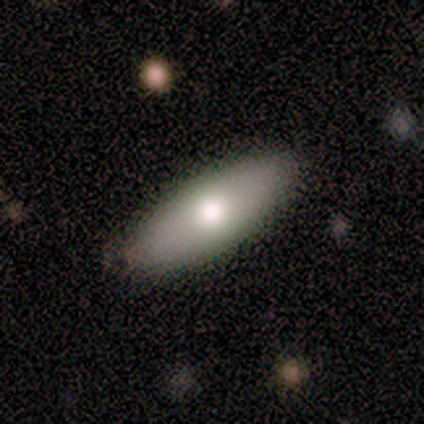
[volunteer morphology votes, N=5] Smooth or featured: smooth — 80% (featured or disk — 20%)
How rounded: in between — 100%
Merging: none — 80% (minor disturbance — 20%)